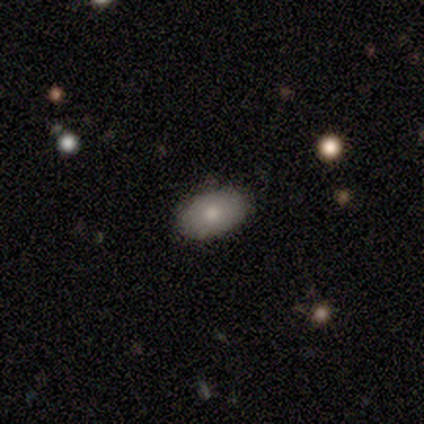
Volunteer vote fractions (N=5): This appears to be a smooth galaxy with no disk features (100%) that is in between round and cigar-shaped (100%). Merging: none (80%).